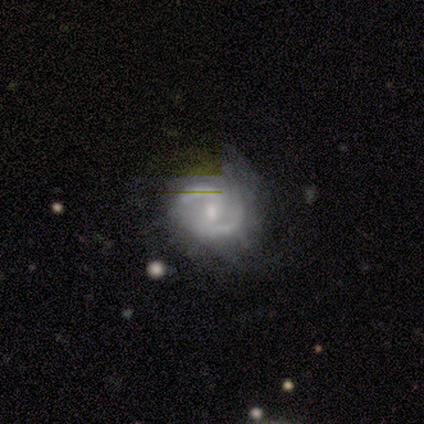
Smooth or featured? 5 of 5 (100%) said featured or disk. Edge-on disk? 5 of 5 (100%) said no. Bar? 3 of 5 (60%) said no. Spiral arms? 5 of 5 (100%) said yes. Spiral winding? 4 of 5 (80%) said medium. Spiral arm count? 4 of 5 (80%) said 2. Bulge size? 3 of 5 (60%) said small. Merging? 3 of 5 (60%) said none.